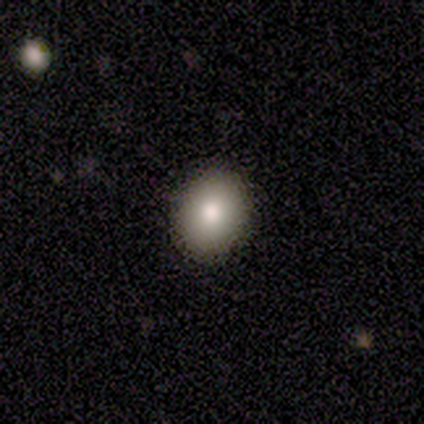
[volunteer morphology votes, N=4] Volunteers were most divided on "how rounded" (2-way tie): round: 50%, in between: 50%, cigar-shaped: 0%. More confident: smooth or featured — smooth (100%); merging — none (100%).